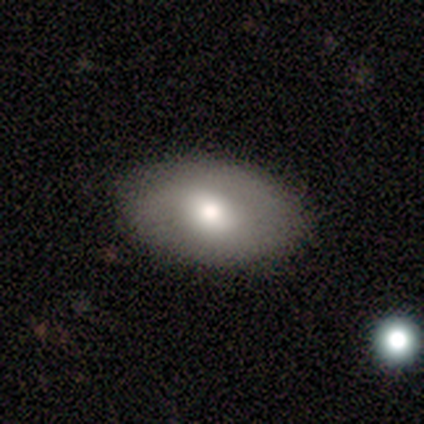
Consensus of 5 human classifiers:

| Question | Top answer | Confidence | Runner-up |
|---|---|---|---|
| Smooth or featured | smooth | 100% | — |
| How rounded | in between | 80% | round (20%) |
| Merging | none | 100% | — |